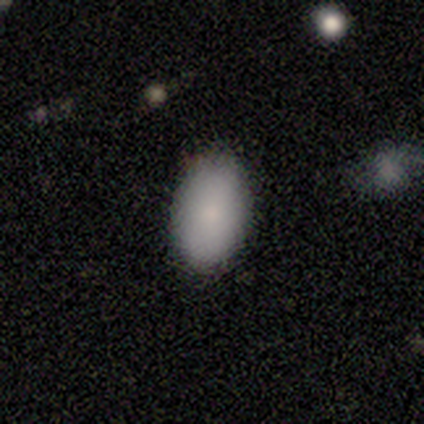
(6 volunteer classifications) Smooth or featured? smooth (100%)
How rounded? in between (100%)
Merging? none (83%)